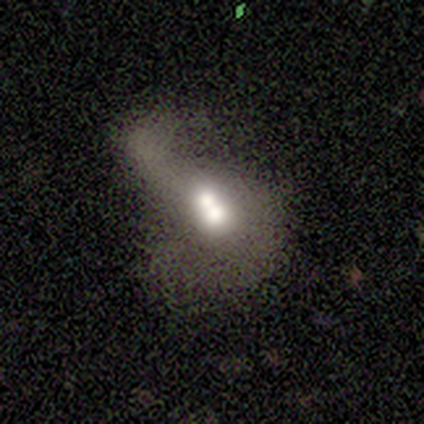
Overall: featured or disk (50%; smooth 25%). Edge-on disk: no (100%). Bar: strong (50%, tied with weak). Spiral arms: yes (50%, tied with no). Spiral arm count: 1 (100%). Spiral winding: loose (100%). Bulge size: large (50%, tied with moderate). Merging: minor disturbance (67%; major disturbance 33%).